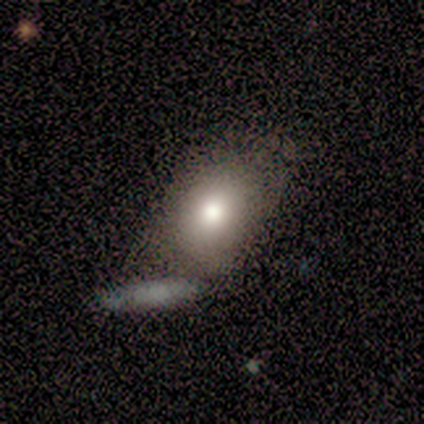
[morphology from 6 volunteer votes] Smooth or featured: smooth — 67% (featured or disk — 17%)
How rounded: round — 50% (tied with in between — 50%)
Merging: minor disturbance — 60% (none — 20%)